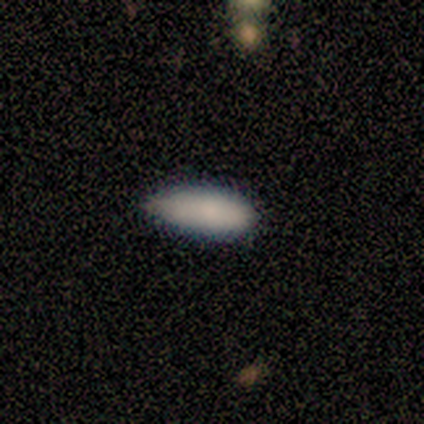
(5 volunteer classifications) A smooth galaxy with no disk features (100%) that is in between round and cigar-shaped (100%). Merging: minor disturbance (60%).